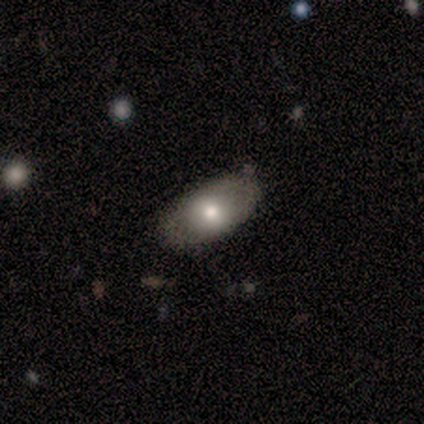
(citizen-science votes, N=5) smooth-or-featured: smooth: 80% | featured or disk: 20% | star or artifact: 0%
  how-rounded: in between: 100% | round: 0% | cigar-shaped: 0%
  merging: none: 60% | minor disturbance: 40% | major disturbance: 0% | merger: 0%